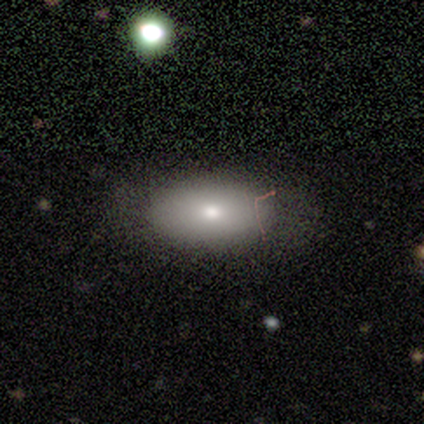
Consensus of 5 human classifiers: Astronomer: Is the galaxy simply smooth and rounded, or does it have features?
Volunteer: smooth — 80%.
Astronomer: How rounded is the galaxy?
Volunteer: in between — 100%.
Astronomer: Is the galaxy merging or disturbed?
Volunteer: none — 100%.